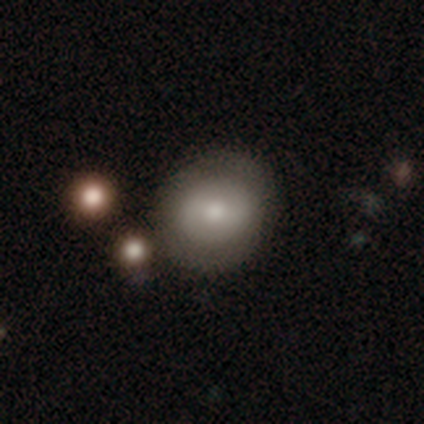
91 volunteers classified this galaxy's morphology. smooth-or-featured: smooth: 62% | featured or disk: 31% | star or artifact: 8%
  how-rounded: round: 84% | in between: 16% | cigar-shaped: 0%
  merging: none: 71% | minor disturbance: 11% | merger: 10% | major disturbance: 8%